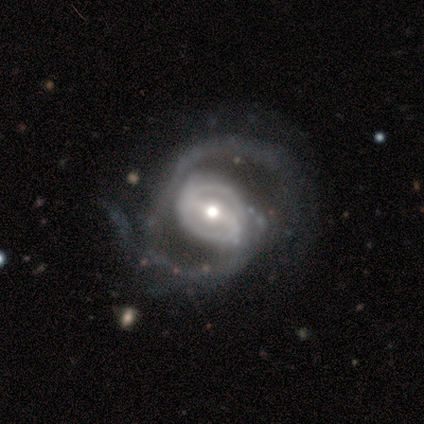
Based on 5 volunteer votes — This is clearly a featured or disk galaxy (100%). It is clearly not viewed edge-on (100%). Bar: marginally weak (40%, tied with no). Spiral arm pattern: clearly yes (100%). Spiral arm count: clearly 2 (80%). Spiral winding: clearly medium (80%). Central bulge: likely moderate (60%). Merging: likely major disturbance (60%).